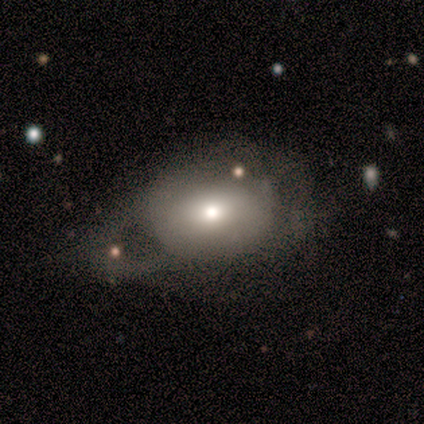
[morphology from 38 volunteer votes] smooth 76%, featured or disk 18%, star or artifact 5%. Down the decision tree: how rounded — in between (55%); merging — major disturbance (50%).